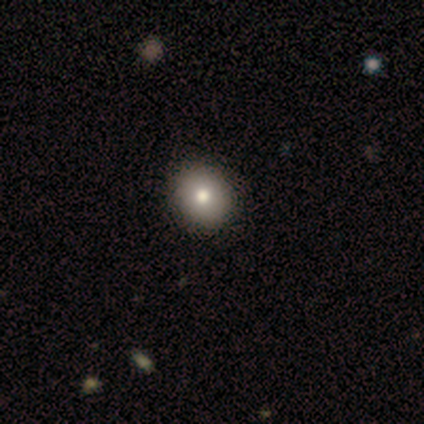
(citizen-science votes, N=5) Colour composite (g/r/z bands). It shows a smooth galaxy with no disk features (100%) that is round (100%). Merging: none (100%).